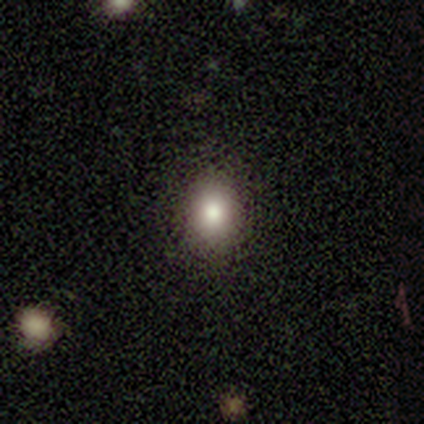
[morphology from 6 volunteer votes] A smooth galaxy with no disk features (100%) that is in between round and cigar-shaped (67%). Merging: none (83%).